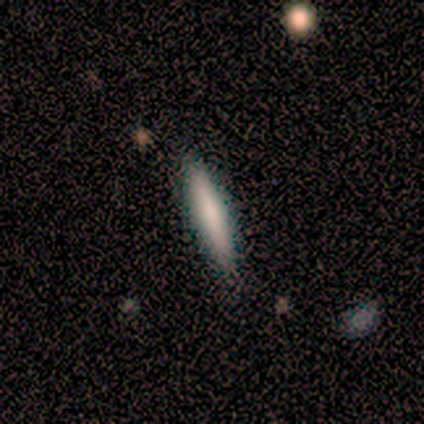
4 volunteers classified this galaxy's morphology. This is possibly a smooth galaxy (50%, tied with featured or disk). How rounded: clearly cigar-shaped (100%). Merging: likely none (75%).